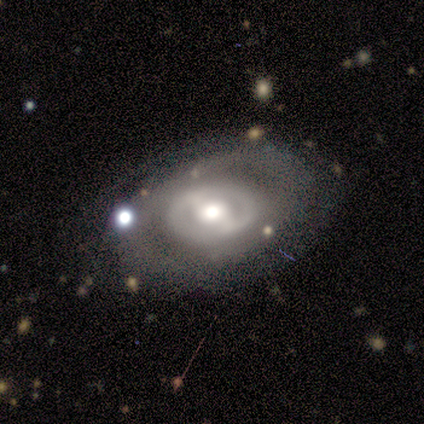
Smooth or featured: featured or disk — 80% (smooth — 20%)
Edge-on disk: no — 100%
Bar: weak — 75% (strong — 25%)
Spiral arms: no — 75% (yes — 25%)
Bulge size: large — 100%
Merging: none — 40% (tied with major disturbance — 40%)